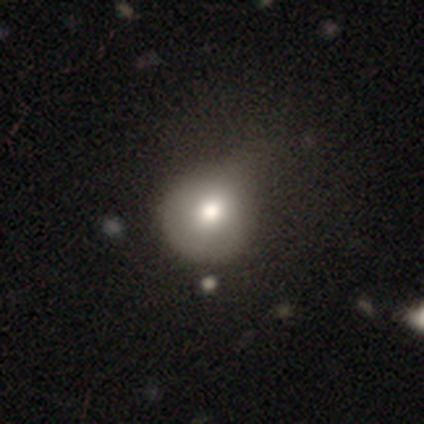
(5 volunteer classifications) A smooth galaxy with no disk features (60%) that is round (100%). Merging: minor disturbance (60%).